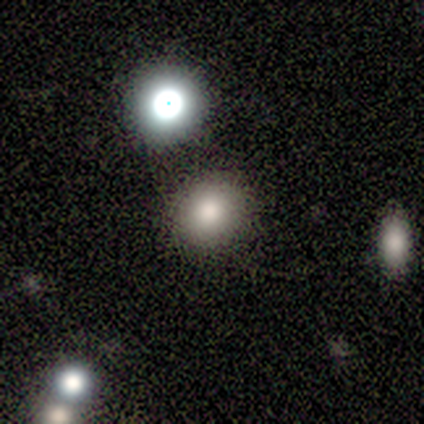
Q: Smooth or featured?
A: smooth (71%); runner-up: star or artifact (21%)
Q: How rounded?
A: round (70%); runner-up: in between (30%)
Q: Merging?
A: none (100%)